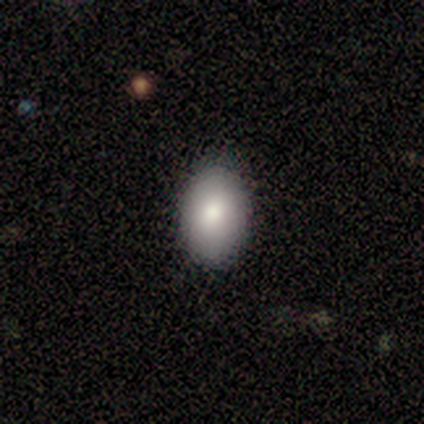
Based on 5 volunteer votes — A smooth galaxy with no disk features (100%) that is in between round and cigar-shaped (80%).

Vote fractions:
- Smooth or featured? smooth: 100% / featured or disk: 0% / star or artifact: 0%
- How rounded? in between: 80% / round: 20% / cigar-shaped: 0%
- Merging? none: 80% / minor disturbance: 20% / major disturbance: 0% / merger: 0%